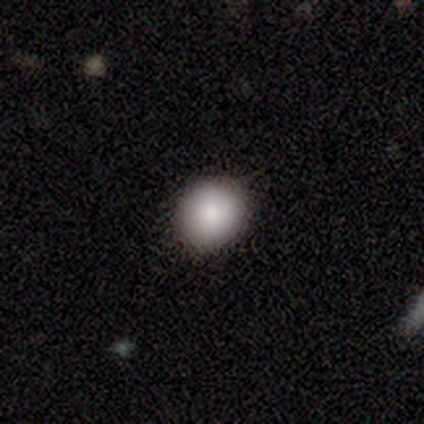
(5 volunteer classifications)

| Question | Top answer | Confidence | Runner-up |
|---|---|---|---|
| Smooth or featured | smooth | 80% | featured or disk (20%) |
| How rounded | round | 75% | in between (25%) |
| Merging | none | 80% | minor disturbance (20%) |